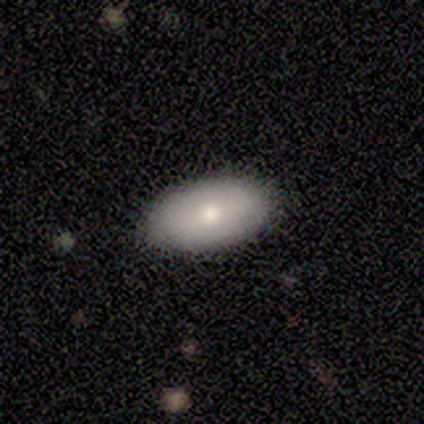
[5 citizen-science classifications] Smooth or featured? smooth (80%)
How rounded? in between (75%)
Merging? none (80%)